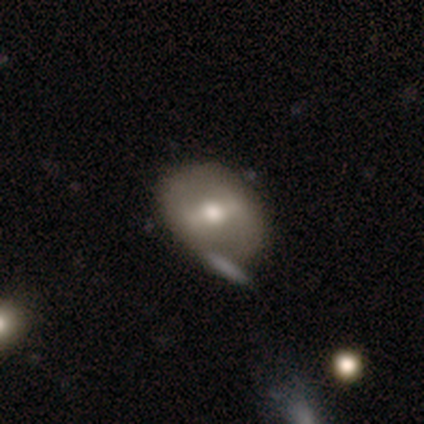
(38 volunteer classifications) This is possibly a featured or disk galaxy (58%). It is clearly not viewed edge-on (82%). Bar: possibly weak (50%). Spiral arm pattern: likely no (72%). Central bulge: likely moderate (67%). Merging: likely none (72%).